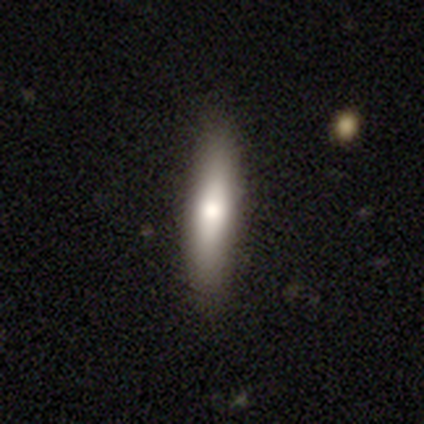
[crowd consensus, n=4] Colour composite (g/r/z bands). It shows a smooth galaxy with no disk features (100%) that is cigar-shaped (100%). Merging: none (50%, tied with minor disturbance).